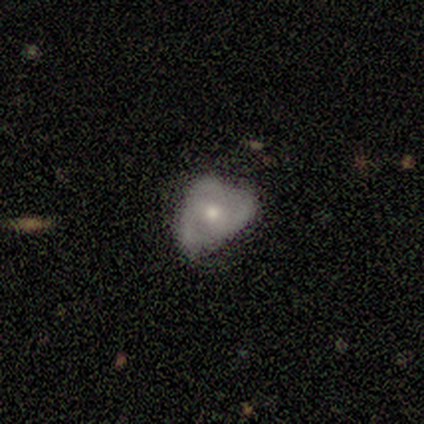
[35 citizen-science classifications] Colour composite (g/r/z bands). It shows a featured or disk galaxy (66%) with no bar (82%), 3 (75%) tight (33%, tied with medium and loose) spiral arms (55%) and a small central bulge (50%). Merging: none (55%).